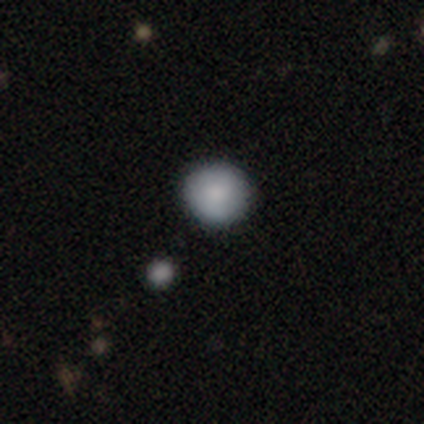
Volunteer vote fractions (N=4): Smooth or featured?
  - smooth: 100% *
  - featured or disk: 0%
  - star or artifact: 0%
How rounded?
  - round: 100% *
  - in between: 0%
  - cigar-shaped: 0%
Merging?
  - none: 75% *
  - minor disturbance: 25%
  - major disturbance: 0%
  - merger: 0%